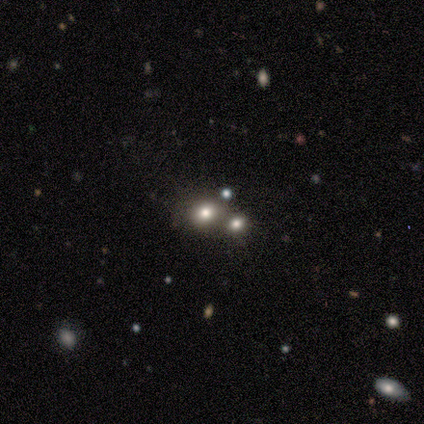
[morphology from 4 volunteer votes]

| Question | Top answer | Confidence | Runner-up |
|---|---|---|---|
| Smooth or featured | smooth | 75% | featured or disk (25%) |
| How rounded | round | 67% | in between (33%) |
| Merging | merger | 75% | none (25%) |